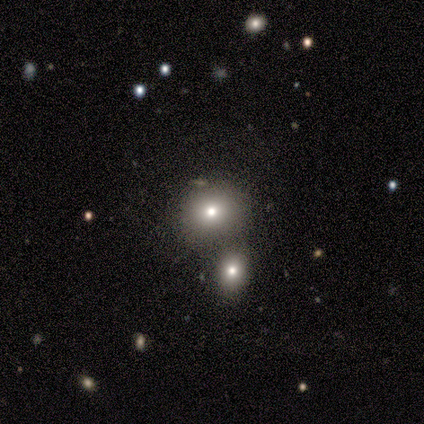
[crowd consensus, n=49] smooth 69%, featured or disk 18%, star or artifact 12%. Down the decision tree: how rounded — round (68%); merging — none (56%).